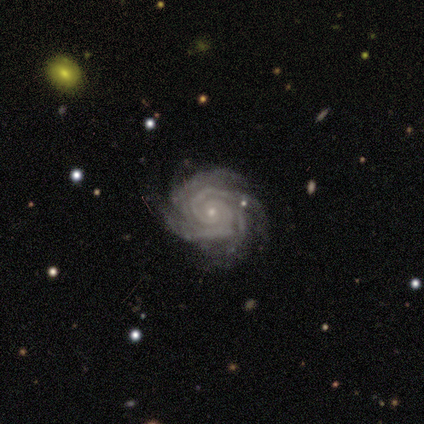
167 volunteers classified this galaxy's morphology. Q: Smooth or featured?
A: featured or disk (98%); runner-up: star or artifact (1%)
Q: Edge-on disk?
A: no (99%); runner-up: yes (1%)
Q: Bar?
A: no (85%); runner-up: strong (9%)
Q: Spiral arms?
A: yes (100%)
Q: Spiral winding?
A: tight (90%); runner-up: medium (9%)
Q: Spiral arm count?
A: 4 (48%); runner-up: 3 (25%)
Q: Bulge size?
A: small (82%); runner-up: moderate (16%)
Q: Merging?
A: none (85%); runner-up: minor disturbance (13%)